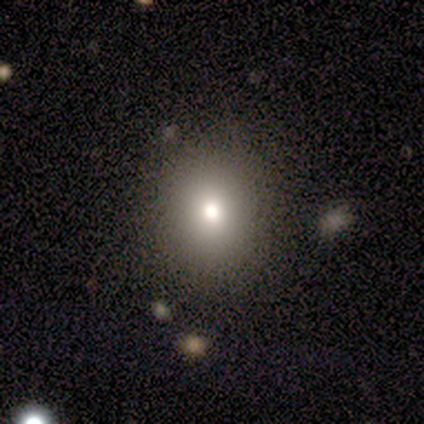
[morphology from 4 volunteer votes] Smooth or featured? smooth (50%, tied with star or artifact)
How rounded? round (100%)
Merging? none (50%, tied with merger)